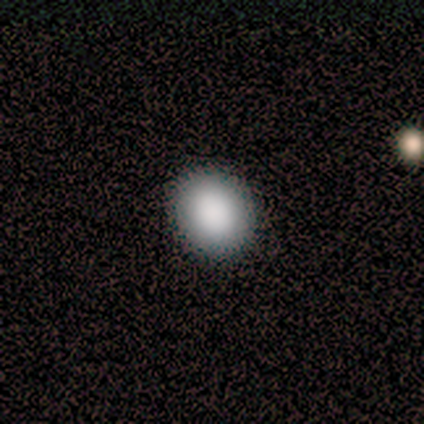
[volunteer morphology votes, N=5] Smooth or featured? smooth (100%)
How rounded? round (80%)
Merging? none (100%)